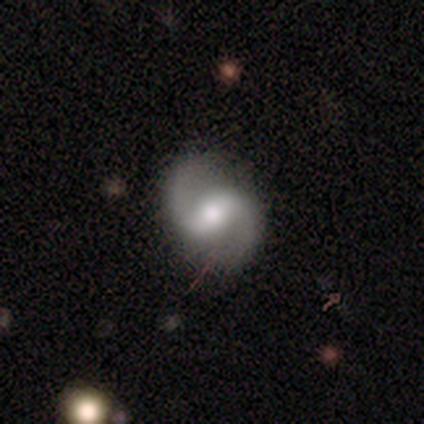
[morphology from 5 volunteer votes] This appears to be a featured or disk galaxy (100%) with a weak bar (60%), 2 (100%) loose (60%) spiral arms (100%) and a moderate central bulge (80%). Merging: none (80%).